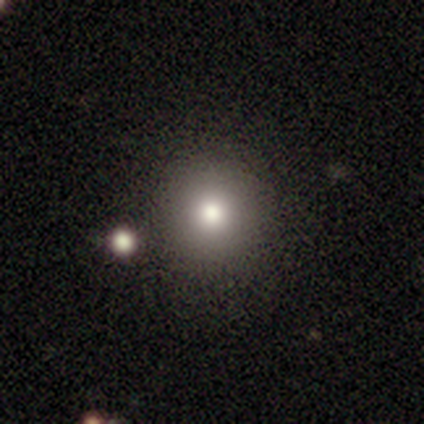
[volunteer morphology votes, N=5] This appears to be a smooth galaxy with no disk features (80%) that is round (100%). Merging: none (80%).